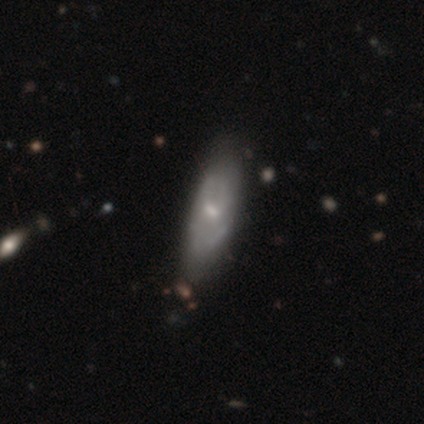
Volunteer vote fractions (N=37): Smooth or featured? 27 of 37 (73%) said featured or disk. Edge-on disk? 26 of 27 (96%) said no. Bar? 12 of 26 (46%) said no. Spiral arms? 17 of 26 (65%) said yes. Spiral winding? 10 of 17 (59%) said medium. Spiral arm count? 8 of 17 (47%) said can't tell. Bulge size? 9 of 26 (35%) said small. Merging? 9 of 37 (24%, tied with minor disturbance) said none.